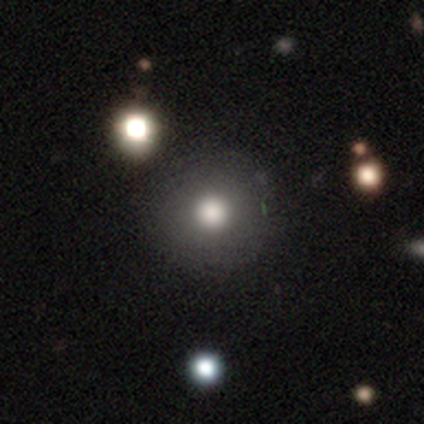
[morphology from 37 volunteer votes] Smooth or featured: smooth — 84% (featured or disk — 11%)
How rounded: round — 100%
Merging: none — 63% (minor disturbance — 11%)